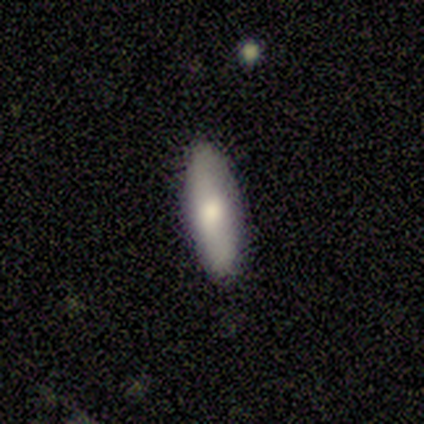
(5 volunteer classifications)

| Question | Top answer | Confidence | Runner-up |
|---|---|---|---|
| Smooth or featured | smooth | 80% | featured or disk (20%) |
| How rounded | in between | 100% | — |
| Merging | none | 100% | — |